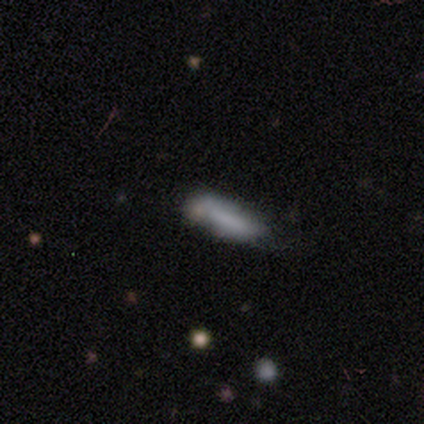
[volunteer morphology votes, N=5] smooth-or-featured: smooth: 80% | featured or disk: 20% | star or artifact: 0%
  how-rounded: in between: 50% (tied) | cigar-shaped: 50% (tied) | round: 0%
  merging: minor disturbance: 60% | none: 40% | major disturbance: 0% | merger: 0%